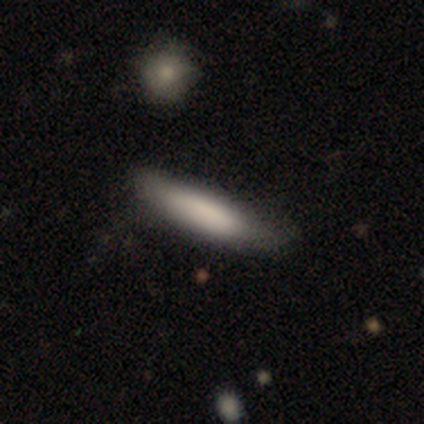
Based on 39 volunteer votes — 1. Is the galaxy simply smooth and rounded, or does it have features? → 85% smooth, 15% featured or disk, 0% star or artifact.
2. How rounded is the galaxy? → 85% cigar-shaped, 15% in between, 0% round.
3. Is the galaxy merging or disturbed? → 41% none, 18% minor disturbance, 5% merger, 3% major disturbance.